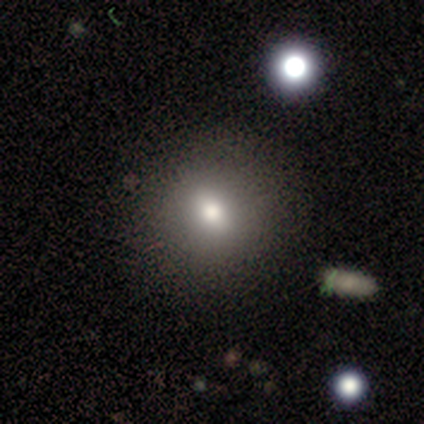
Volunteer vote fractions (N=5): Volunteers were most divided on "smooth or featured": smooth: 80%, featured or disk: 20%, star or artifact: 0%. More confident: how rounded — round (100%); merging — none (100%).